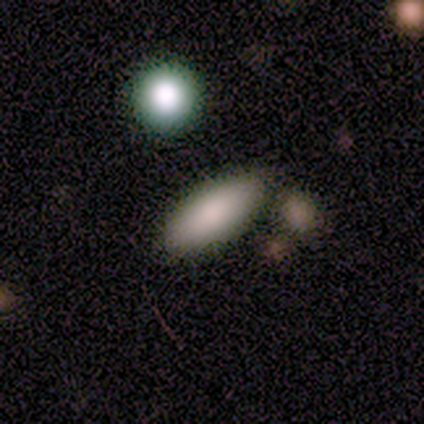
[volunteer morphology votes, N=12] Smooth or featured: smooth — 83% (star or artifact — 17%)
How rounded: in between — 90% (cigar-shaped — 10%)
Merging: none — 80% (minor disturbance — 10%)